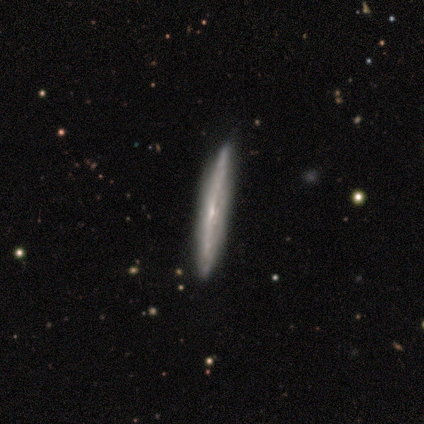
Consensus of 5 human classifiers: featured or disk 80%, smooth 20%, star or artifact 0%. Down the decision tree: edge-on disk — yes (100%); edge-on bulge — none (50%, tied with rounded); merging — none (80%).